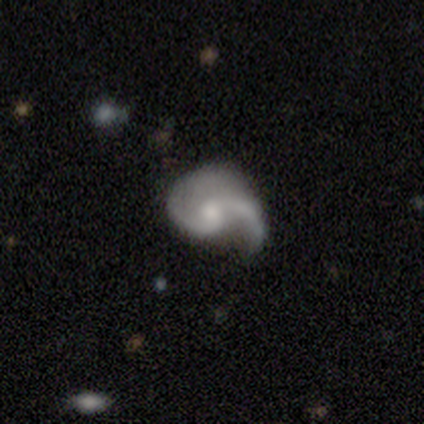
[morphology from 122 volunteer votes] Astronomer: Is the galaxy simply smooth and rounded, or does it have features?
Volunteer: featured or disk — 95%.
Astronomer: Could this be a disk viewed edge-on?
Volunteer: no — 96%.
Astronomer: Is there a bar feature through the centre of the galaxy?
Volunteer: no — 69%.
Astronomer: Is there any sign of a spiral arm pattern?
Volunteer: yes — 97%.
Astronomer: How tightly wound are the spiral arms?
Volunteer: loose — 59% (runner-up: medium, 34%).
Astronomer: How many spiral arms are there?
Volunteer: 2 — 83%.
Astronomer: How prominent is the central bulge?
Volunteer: moderate — 53% (runner-up: small, 41%).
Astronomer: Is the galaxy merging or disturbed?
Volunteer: none — 40% (runner-up: minor disturbance, 32%).